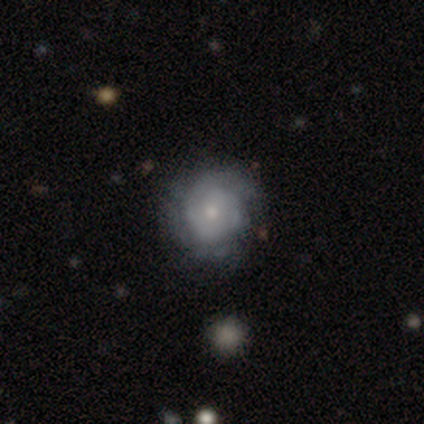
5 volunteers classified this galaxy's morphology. featured or disk 80%, smooth 20%, star or artifact 0%. Down the decision tree: edge-on disk — no (100%); bar — no (100%); spiral arms — yes (75%); spiral arm count — can't tell (67%); spiral winding — tight (100%); bulge size — small (75%); merging — none (60%).